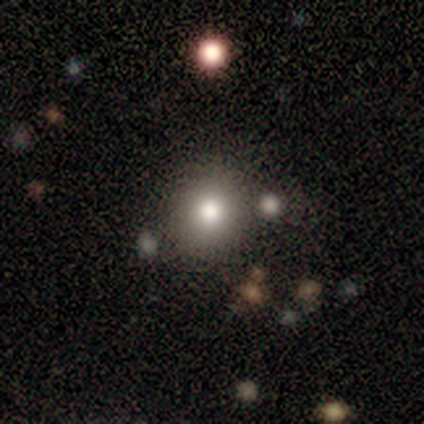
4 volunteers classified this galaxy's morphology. A smooth galaxy with no disk features (100%) that is round (75%).

Vote fractions:
- Smooth or featured? smooth: 100% / featured or disk: 0% / star or artifact: 0%
- How rounded? round: 75% / in between: 25% / cigar-shaped: 0%
- Merging? none: 100% / minor disturbance: 0% / major disturbance: 0% / merger: 0%